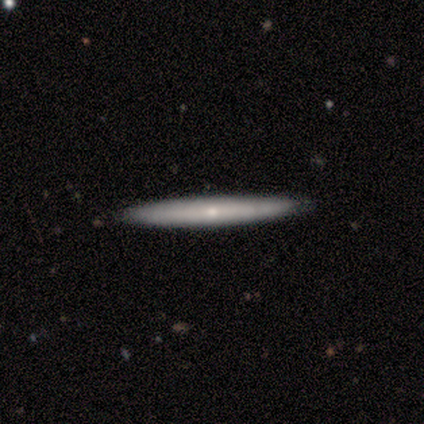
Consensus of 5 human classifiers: Smooth or featured: featured or disk — 80% (smooth — 20%)
Edge-on disk: yes — 100%
Edge-on bulge: rounded — 50% (boxy — 25%)
Merging: none — 80% (minor disturbance — 20%)